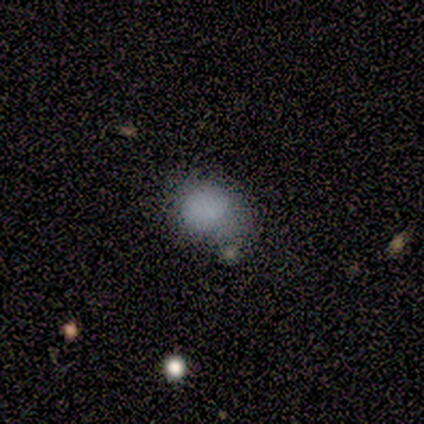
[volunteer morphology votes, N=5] smooth_or_featured: smooth (p=0.80) [alt: star or artifact p=0.20]
how_rounded: round (p=0.75) [alt: in between p=0.25]
merging: minor disturbance (p=0.75) [alt: none p=0.25]